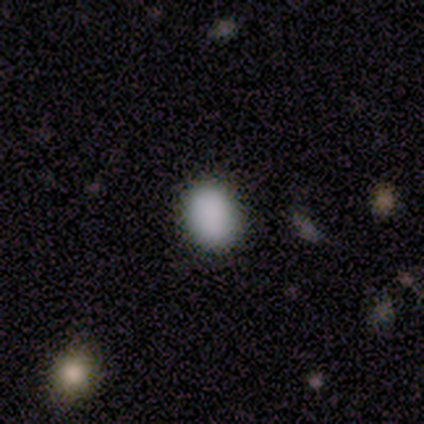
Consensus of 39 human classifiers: smooth 90%, star or artifact 10%, featured or disk 0%. Down the decision tree: how rounded — in between (54%); merging — none (97%).